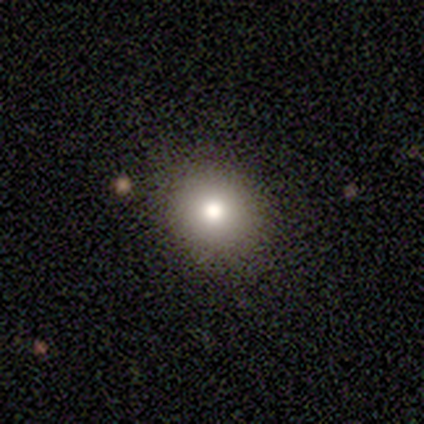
This appears to be a smooth galaxy with no disk features (81%) that is round (76%). Merging: none (90%).